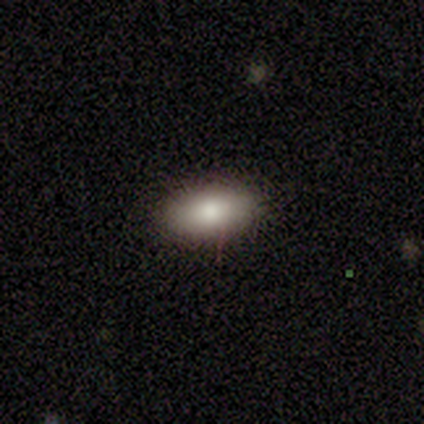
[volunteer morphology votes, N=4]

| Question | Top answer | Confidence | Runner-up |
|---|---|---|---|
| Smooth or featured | smooth | 75% | star or artifact (25%) |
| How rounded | in between | 100% | — |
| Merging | none | 100% | — |